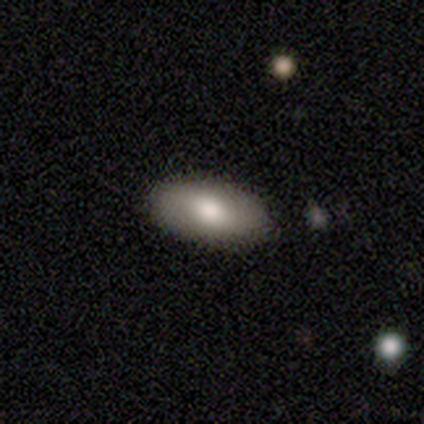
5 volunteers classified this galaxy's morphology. smooth 80%, featured or disk 20%, star or artifact 0%. Down the decision tree: how rounded — in between (100%); merging — none (100%).